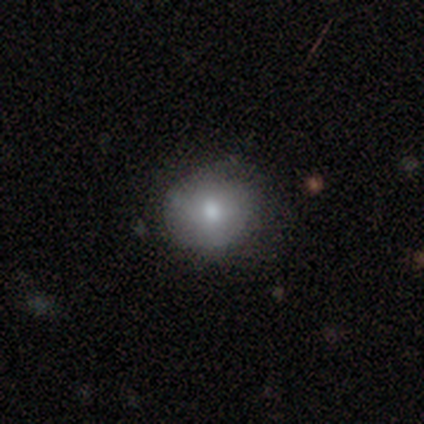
This appears to be a smooth galaxy with no disk features (61%) that is round (83%). Merging: none (64%).